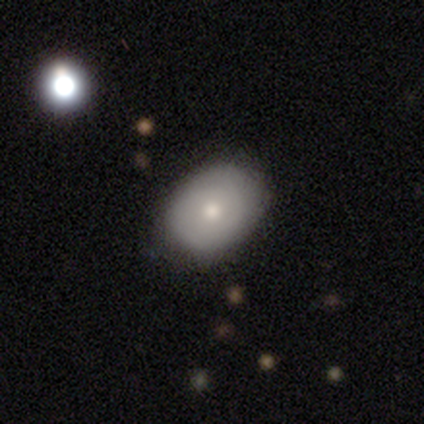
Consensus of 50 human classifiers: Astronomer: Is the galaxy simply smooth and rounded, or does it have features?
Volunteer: smooth — 80%.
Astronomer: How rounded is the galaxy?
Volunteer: in between — 75%.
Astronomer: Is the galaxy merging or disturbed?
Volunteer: none — 76%.